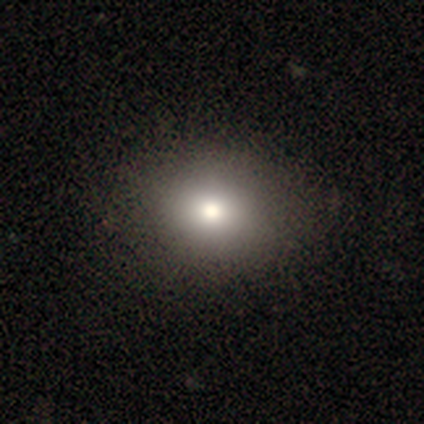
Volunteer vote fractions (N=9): A smooth galaxy with no disk features (100%) that is round (56%). Merging: none (78%).